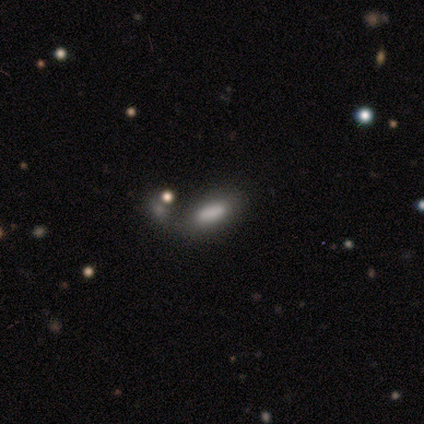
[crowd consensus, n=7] Smooth or featured? 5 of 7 (71%) said smooth. How rounded? 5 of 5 (100%) said in between. Merging? 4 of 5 (80%) said none.